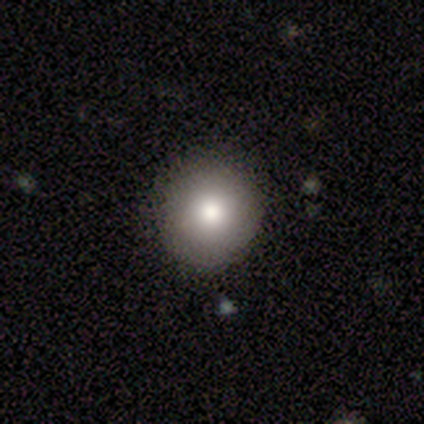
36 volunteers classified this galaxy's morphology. Smooth or featured? smooth (78%)
How rounded? round (93%)
Merging? none (87%)